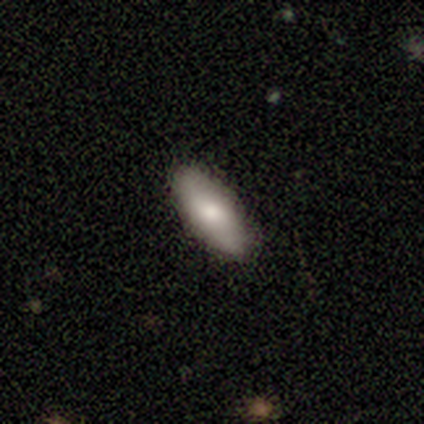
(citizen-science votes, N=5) This appears to be a smooth galaxy with no disk features (60%) that is in between round and cigar-shaped (67%). Merging: none (80%).